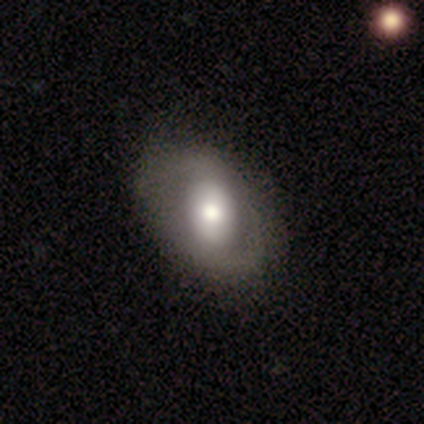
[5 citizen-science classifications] A featured or disk galaxy (60%) with a strong bar (67%), 2 (100%) tight (50%, tied with loose) spiral arms (67%) and a moderate central bulge (67%).

Vote fractions:
- Smooth or featured? featured or disk: 60% / smooth: 40% / star or artifact: 0%
- Edge-on disk? no: 100% / yes: 0%
- Bar? strong: 67% / no: 33% / weak: 0%
- Spiral arms? yes: 67% / no: 33%
- Spiral winding? tight: 50% (tied) / loose: 50% (tied) / medium: 0%
- Spiral arm count? 2: 100% / 1: 0% / 3: 0% / 4: 0% / more than 4: 0% / can't tell: 0%
- Bulge size? moderate: 67% / large: 33% / dominant: 0% / small: 0% / none: 0%
- Merging? none: 80% / minor disturbance: 20% / major disturbance: 0% / merger: 0%